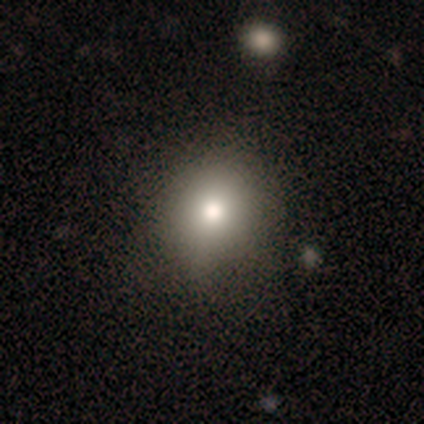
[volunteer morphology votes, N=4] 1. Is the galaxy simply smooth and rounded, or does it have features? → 75% smooth, 25% featured or disk, 0% star or artifact.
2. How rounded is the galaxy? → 100% in between, 0% round, 0% cigar-shaped.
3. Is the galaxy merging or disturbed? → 50% none, 25% minor disturbance, 25% major disturbance, 0% merger.